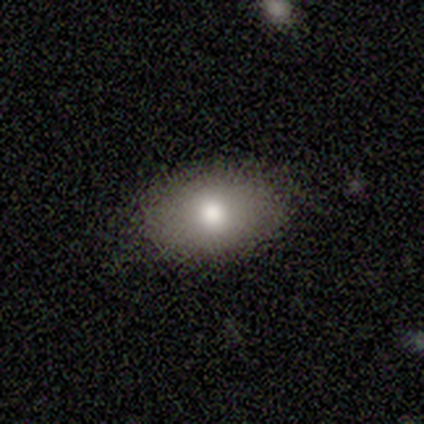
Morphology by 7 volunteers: smooth 100%, featured or disk 0%, star or artifact 0%. Down the decision tree: how rounded — in between (100%); merging — none (86%).